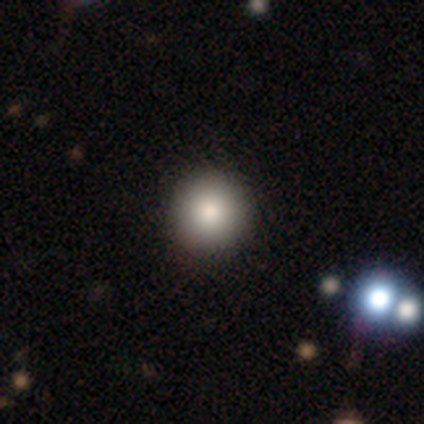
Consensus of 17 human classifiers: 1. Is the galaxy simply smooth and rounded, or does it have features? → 88% smooth, 6% featured or disk, 6% star or artifact.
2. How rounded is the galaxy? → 100% round, 0% in between, 0% cigar-shaped.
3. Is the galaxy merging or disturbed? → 94% none, 6% merger, 0% minor disturbance, 0% major disturbance.